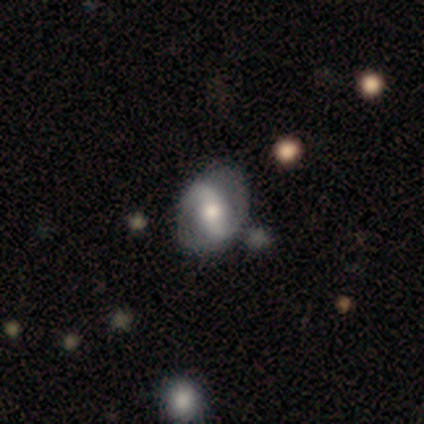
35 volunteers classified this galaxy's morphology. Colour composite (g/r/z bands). It shows a featured or disk galaxy (71%) with a strong bar (38%), 2 (93%) tight (40%, tied with loose) spiral arms (62%) and a moderate central bulge (71%). Merging: none (58%).